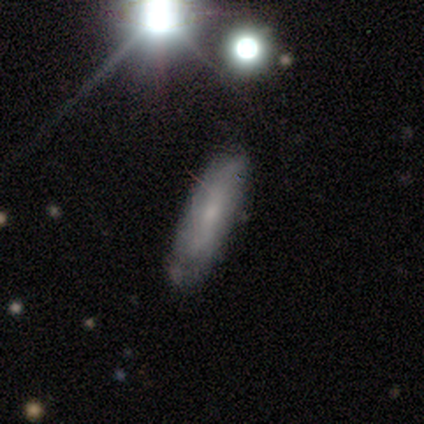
Overall: smooth (55%; featured or disk 42%). How rounded: in between (59%; cigar-shaped 38%). Merging: none (61%; minor disturbance 33%).